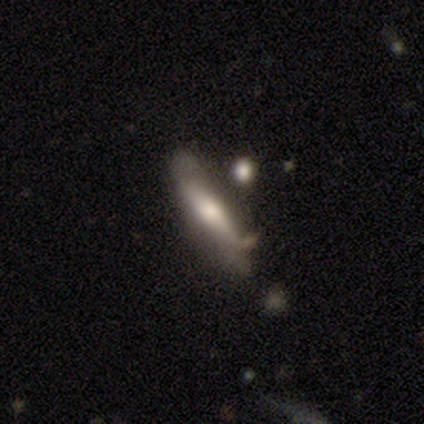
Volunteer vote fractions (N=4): A smooth galaxy with no disk features (50%, tied with featured or disk) that is cigar-shaped (100%).

Vote fractions:
- Smooth or featured? smooth: 50% (tied) / featured or disk: 50% (tied) / star or artifact: 0%
- How rounded? cigar-shaped: 100% / round: 0% / in between: 0%
- Merging? minor disturbance: 100% / none: 0% / major disturbance: 0% / merger: 0%